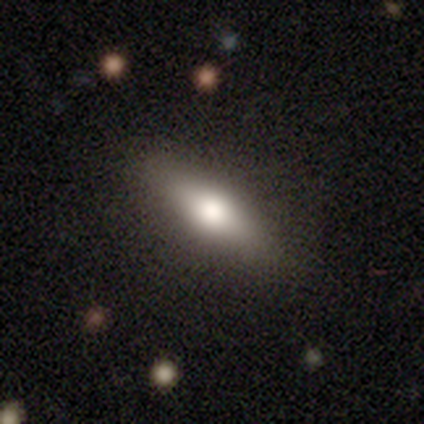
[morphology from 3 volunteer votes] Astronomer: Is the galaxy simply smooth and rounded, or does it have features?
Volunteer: smooth — 33%, tied with featured or disk and star or artifact at 33%.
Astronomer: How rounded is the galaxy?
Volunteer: in between — 100%.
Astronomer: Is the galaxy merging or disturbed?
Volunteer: none — 50%, tied with minor disturbance at 50%.